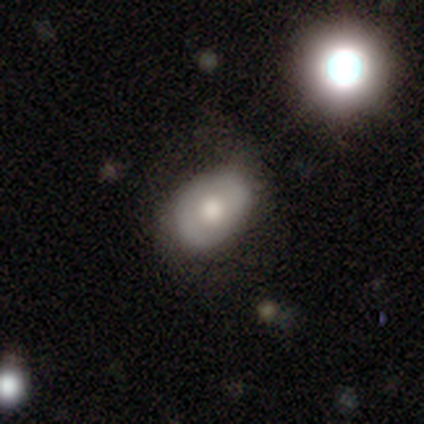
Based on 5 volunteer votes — Smooth or featured?
  - smooth: 80% *
  - featured or disk: 20%
  - star or artifact: 0%
How rounded?
  - round: 50% * (tied)
  - in between: 50% * (tied)
  - cigar-shaped: 0%
Merging?
  - none: 80% *
  - major disturbance: 20%
  - minor disturbance: 0%
  - merger: 0%